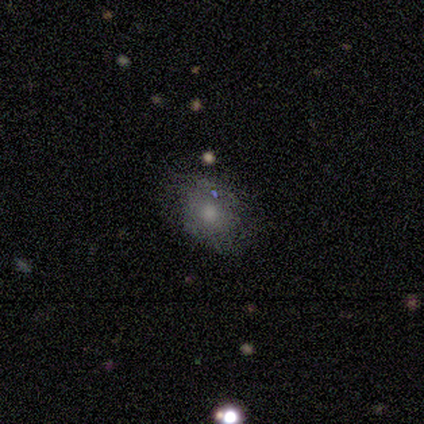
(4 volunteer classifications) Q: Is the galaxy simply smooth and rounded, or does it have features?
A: smooth — 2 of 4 (50%, tied with featured or disk).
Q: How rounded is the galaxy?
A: round — 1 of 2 (50%, tied with in between).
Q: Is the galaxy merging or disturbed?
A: none — 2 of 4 (50%, tied with minor disturbance).